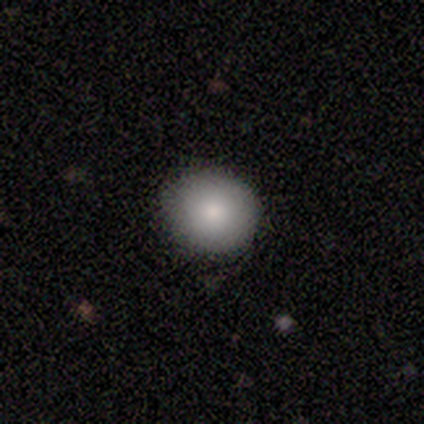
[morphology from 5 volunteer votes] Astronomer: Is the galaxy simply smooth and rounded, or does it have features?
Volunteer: smooth — 100%.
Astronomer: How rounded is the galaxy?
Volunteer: round — 60% (runner-up: in between, 40%).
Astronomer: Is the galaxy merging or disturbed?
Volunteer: none — 80%.